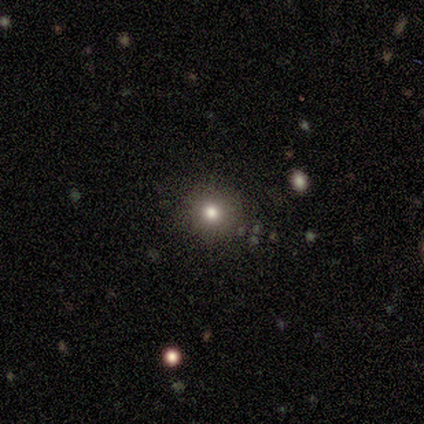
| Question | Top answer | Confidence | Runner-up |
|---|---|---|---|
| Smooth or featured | smooth | 58% | star or artifact (33%) |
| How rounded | round | 86% | cigar-shaped (14%) |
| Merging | none | 100% | — |